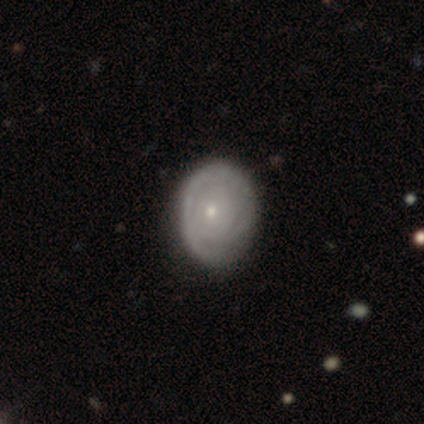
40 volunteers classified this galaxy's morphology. featured or disk 68%, smooth 32%, star or artifact 0%. Down the decision tree: edge-on disk — no (100%); bar — no (100%); spiral arms — yes (81%); spiral arm count — can't tell (68%); spiral winding — tight (95%); bulge size — moderate (48%, tied with small); merging — none (68%).